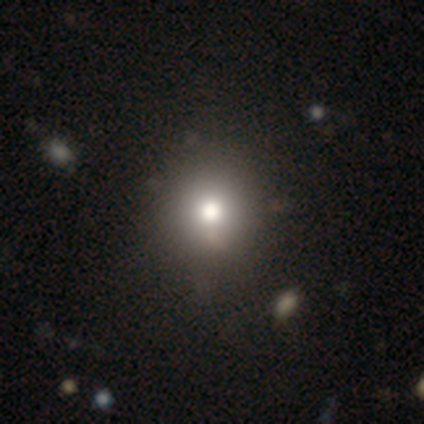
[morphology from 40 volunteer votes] Overall: smooth (78%). How rounded: round (87%). Merging: none (71%).